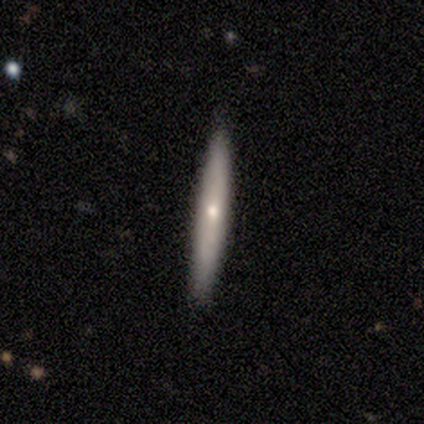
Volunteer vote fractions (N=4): smooth_or_featured: smooth (p=0.50) [tied with: featured or disk p=0.50]
how_rounded: cigar-shaped (p=1.00)
merging: none (p=1.00)